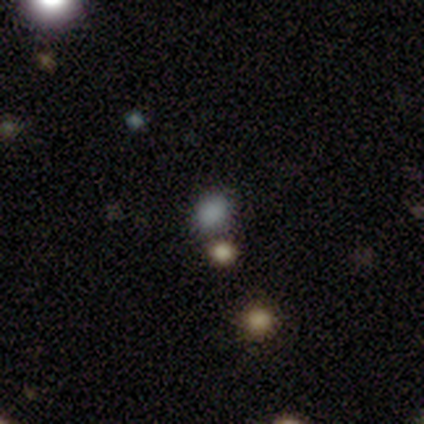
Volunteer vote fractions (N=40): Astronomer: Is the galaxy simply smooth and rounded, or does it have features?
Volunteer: smooth — 68%.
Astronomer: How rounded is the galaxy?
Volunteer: round — 59% (runner-up: in between, 41%).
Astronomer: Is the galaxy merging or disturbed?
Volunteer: none — 82%.